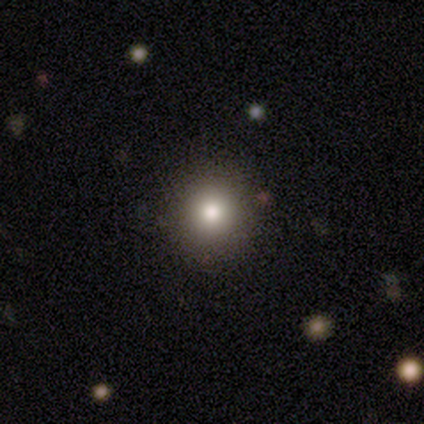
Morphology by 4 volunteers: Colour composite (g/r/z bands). It shows a smooth galaxy with no disk features (75%) that is round (100%). Merging: none (100%).